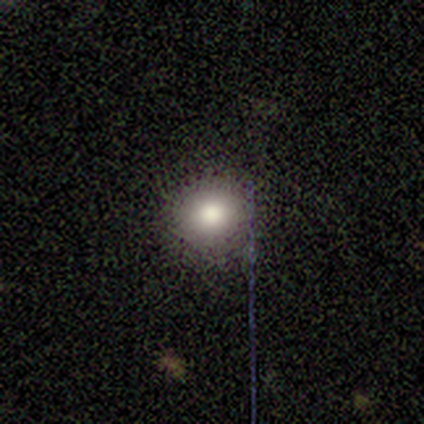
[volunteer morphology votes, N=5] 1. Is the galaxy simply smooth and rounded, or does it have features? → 80% smooth, 20% featured or disk, 0% star or artifact.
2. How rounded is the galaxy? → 100% round, 0% in between, 0% cigar-shaped.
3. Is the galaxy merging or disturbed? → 100% none, 0% minor disturbance, 0% major disturbance, 0% merger.